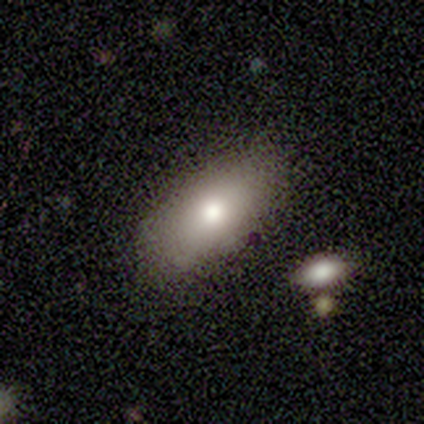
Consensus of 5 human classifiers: A smooth galaxy with no disk features (80%) that is in between round and cigar-shaped (100%). Merging: none (60%).